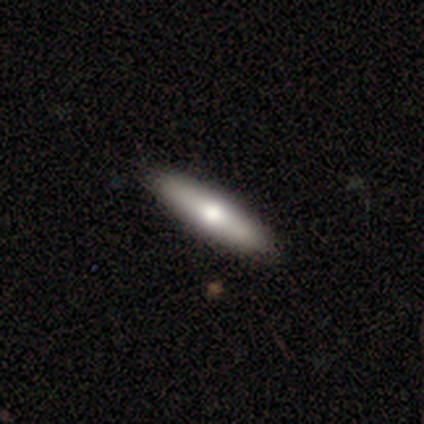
A smooth galaxy with no disk features (82%) that is cigar-shaped (77%). Merging: none (74%).